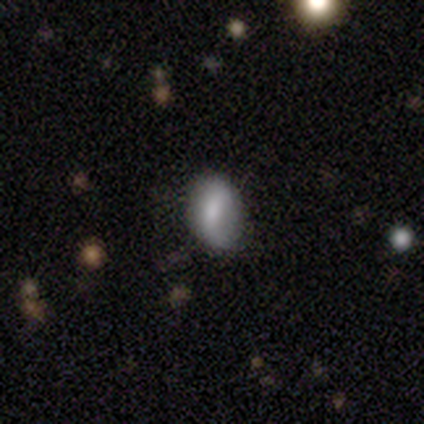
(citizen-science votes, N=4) A smooth galaxy with no disk features (50%, tied with featured or disk) that is in between round and cigar-shaped (100%). Merging: none (75%).